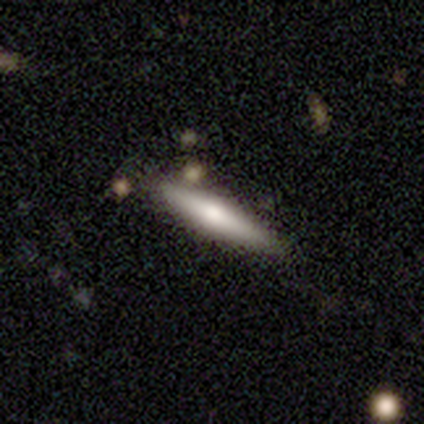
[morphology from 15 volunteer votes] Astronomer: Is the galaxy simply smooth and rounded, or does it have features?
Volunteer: smooth — 60% (runner-up: featured or disk, 40%).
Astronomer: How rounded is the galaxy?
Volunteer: cigar-shaped — 100%.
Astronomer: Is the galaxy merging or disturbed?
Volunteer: none — 80%.